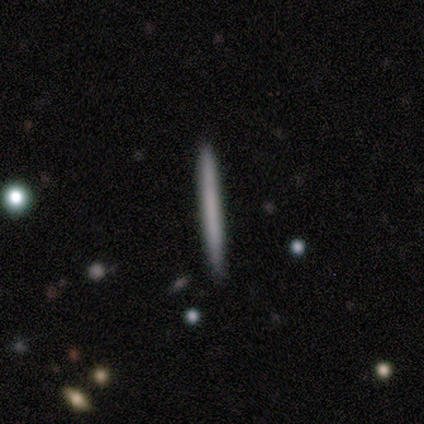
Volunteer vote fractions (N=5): smooth-or-featured: smooth: 60% | featured or disk: 40% | star or artifact: 0%
  how-rounded: cigar-shaped: 100% | round: 0% | in between: 0%
  merging: none: 100% | minor disturbance: 0% | major disturbance: 0% | merger: 0%